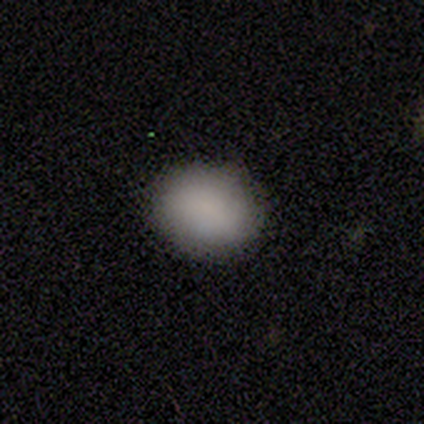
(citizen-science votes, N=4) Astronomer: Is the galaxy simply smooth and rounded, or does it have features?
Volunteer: smooth — 100%.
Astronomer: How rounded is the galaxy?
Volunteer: round — 75%.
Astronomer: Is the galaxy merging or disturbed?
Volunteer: none — 75%.